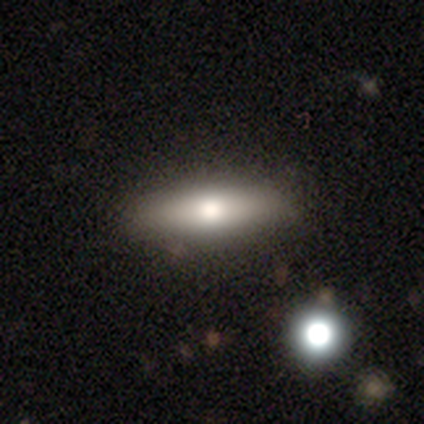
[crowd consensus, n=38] smooth_or_featured: smooth (p=0.71) [alt: featured or disk p=0.21]
how_rounded: cigar-shaped (p=0.63) [alt: in between p=0.37]
merging: none (p=0.74) [alt: minor disturbance p=0.09]